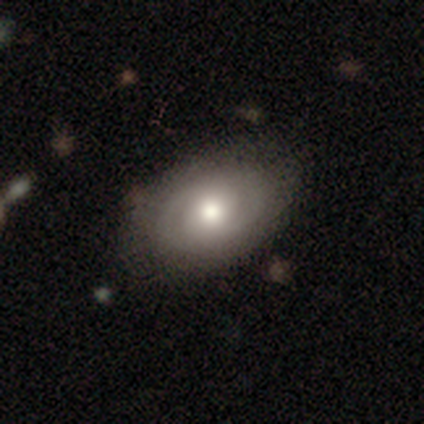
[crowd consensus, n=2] smooth-or-featured: smooth: 50% (tied) | featured or disk: 50% (tied) | star or artifact: 0%
  how-rounded: round: 100% | in between: 0% | cigar-shaped: 0%
  merging: none: 100% | minor disturbance: 0% | major disturbance: 0% | merger: 0%